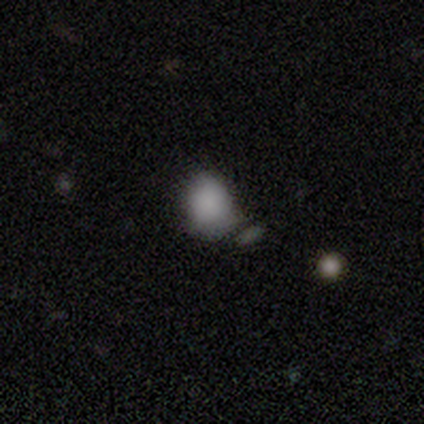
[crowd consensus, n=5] This is clearly a smooth galaxy (100%). How rounded: likely round (60%). Merging: clearly none (80%).